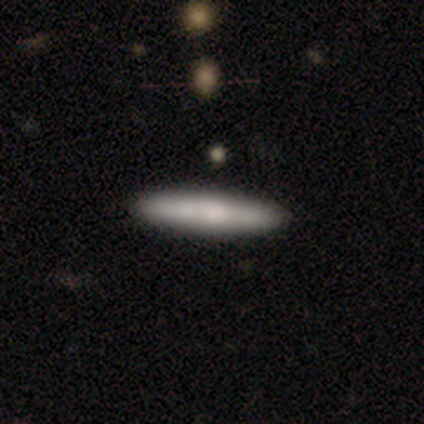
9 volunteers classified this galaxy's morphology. smooth-or-featured: smooth: 67% | featured or disk: 33% | star or artifact: 0%
  how-rounded: cigar-shaped: 100% | round: 0% | in between: 0%
  merging: none: 89% | minor disturbance: 11% | major disturbance: 0% | merger: 0%